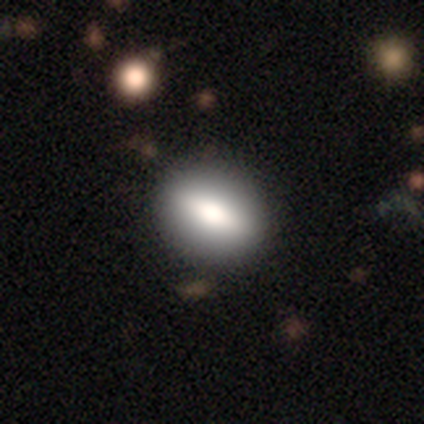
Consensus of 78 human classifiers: This is likely a smooth galaxy (63%). How rounded: likely in between (73%). Merging: clearly none (86%).